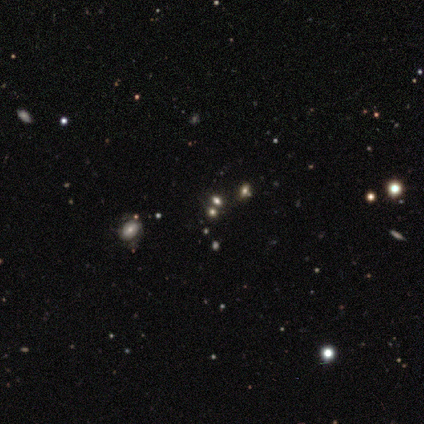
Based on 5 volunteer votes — Overall: smooth (80%). How rounded: round (50%, tied with in between). Merging: none (80%).